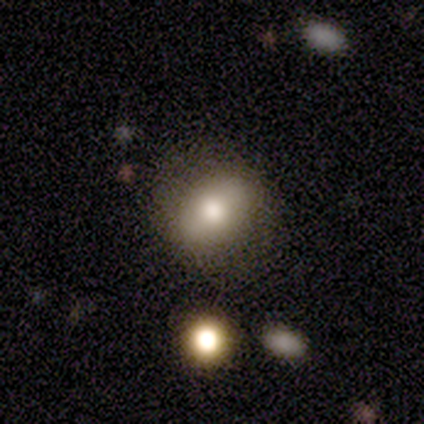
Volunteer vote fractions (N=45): A smooth galaxy with no disk features (60%) that is in between round and cigar-shaped (70%). Merging: none (80%).